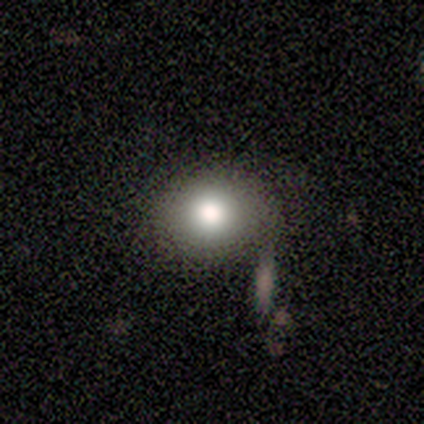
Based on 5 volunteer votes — Smooth or featured? smooth (60%)
How rounded? round (67%)
Merging? none (40%, tied with minor disturbance)